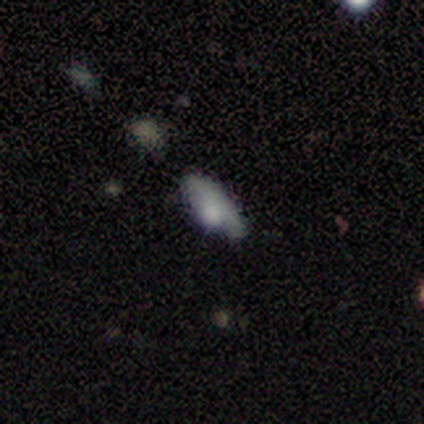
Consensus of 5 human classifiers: This appears to be a smooth galaxy with no disk features (60%) that is in between round and cigar-shaped (67%). Merging: none (80%).